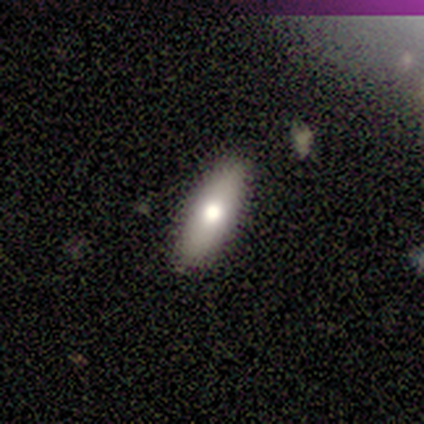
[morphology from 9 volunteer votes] type=smooth (67%); roundness=in between (50%, tied with cigar-shaped); merging=none (100%).